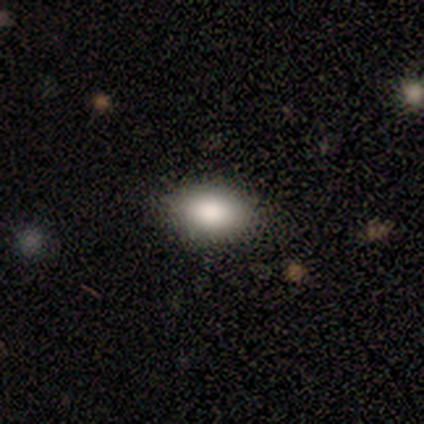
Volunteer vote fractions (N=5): This appears to be a smooth galaxy with no disk features (100%) that is in between round and cigar-shaped (100%). Merging: none (100%).